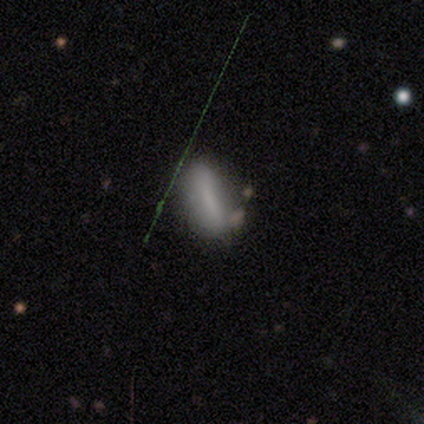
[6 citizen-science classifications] Smooth or featured? 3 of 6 (50%, tied with star or artifact) said smooth. How rounded? 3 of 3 (100%) said in between. Merging? 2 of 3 (67%) said none.